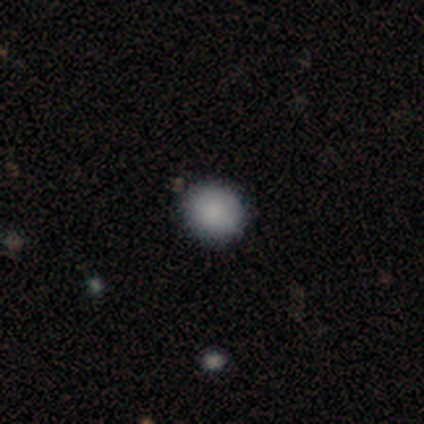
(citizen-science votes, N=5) smooth-or-featured: smooth: 80% | star or artifact: 20% | featured or disk: 0%
  how-rounded: round: 75% | in between: 25% | cigar-shaped: 0%
  merging: none: 100% | minor disturbance: 0% | major disturbance: 0% | merger: 0%